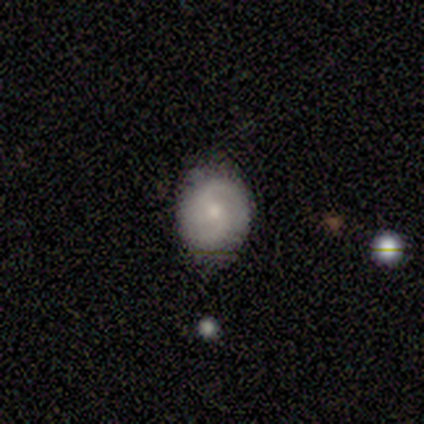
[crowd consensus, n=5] A featured or disk galaxy (60%) with a weak bar (67%), 2 (100%) loose (67%) spiral arms (100%) and a small central bulge (100%). Merging: none (80%).